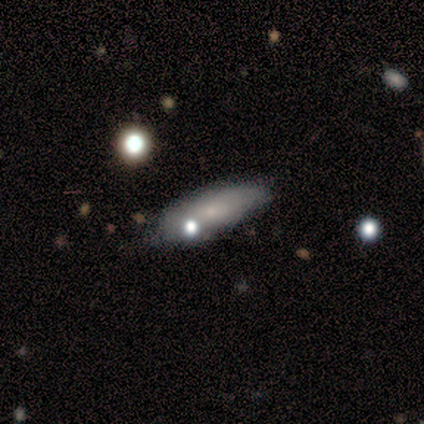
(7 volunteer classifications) Smooth or featured? 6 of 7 (86%) said smooth. How rounded? 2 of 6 (33%, tied with in between and cigar-shaped) said round. Merging? 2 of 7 (29%, tied with minor disturbance and major disturbance) said none.